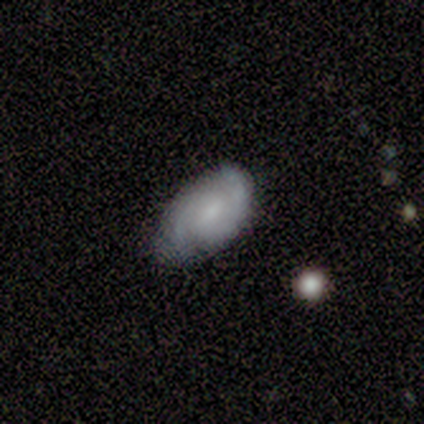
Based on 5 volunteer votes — Smooth or featured: featured or disk — 60% (smooth — 20%)
Edge-on disk: no — 100%
Bar: no — 67% (strong — 33%)
Spiral arms: yes — 100%
Spiral winding: tight — 67% (loose — 33%)
Spiral arm count: 2 — 100%
Bulge size: moderate — 67% (small — 33%)
Merging: none — 50% (tied with minor disturbance — 50%)